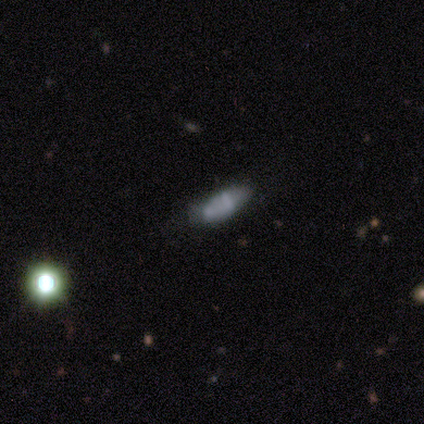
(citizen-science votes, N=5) smooth-or-featured: smooth: 60% | featured or disk: 20% | star or artifact: 20%
  how-rounded: cigar-shaped: 67% | in between: 33% | round: 0%
  merging: none: 50% (tied) | minor disturbance: 50% (tied) | major disturbance: 0% | merger: 0%